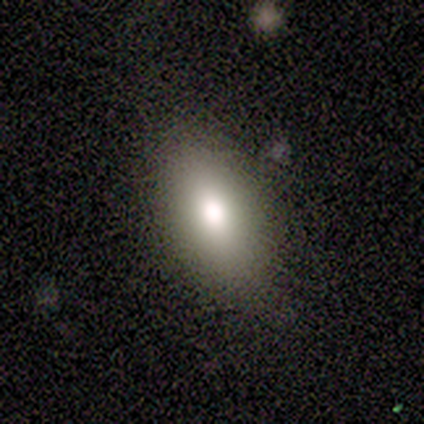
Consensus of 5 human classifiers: Smooth or featured: smooth — 80% (featured or disk — 20%)
How rounded: in between — 75% (cigar-shaped — 25%)
Merging: none — 100%